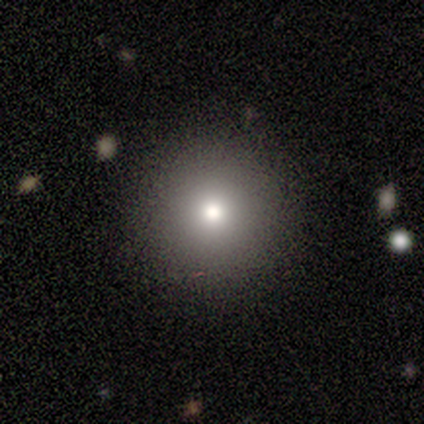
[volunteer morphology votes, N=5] Smooth or featured? smooth (40%, tied with featured or disk)
How rounded? round (100%)
Merging? none (75%)